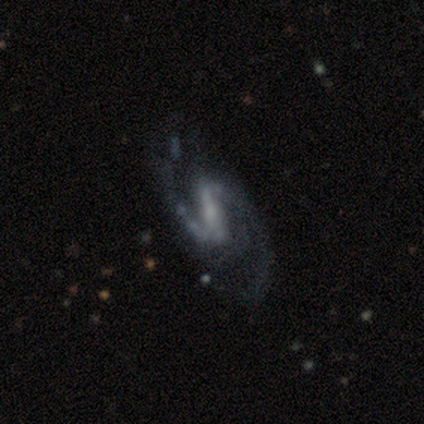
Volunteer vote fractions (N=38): Morphology: type=featured or disk (87%); edge-on=no (100%); bar=strong (61%); spiral arms=yes (100%); winding=medium (48%, tied with loose); arm count=2 (94%); bulge=small (61%); merging=none (39%).